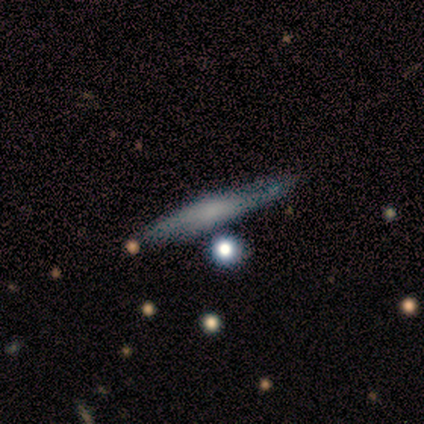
A featured or disk galaxy (53%) viewed edge-on (88%) with a rounded central bulge (86%).

Vote fractions:
- Smooth or featured? featured or disk: 53% / smooth: 40% / star or artifact: 7%
- Edge-on disk? yes: 88% / no: 12%
- Edge-on bulge? rounded: 86% / none: 14% / boxy: 0%
- Merging? none: 79% / minor disturbance: 14% / merger: 7% / major disturbance: 0%